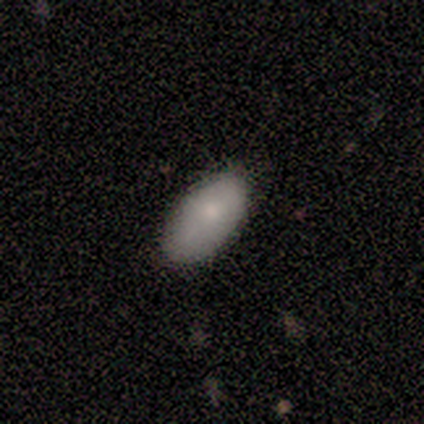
Smooth or featured: smooth — 100%
How rounded: in between — 100%
Merging: none — 75% (minor disturbance — 25%)